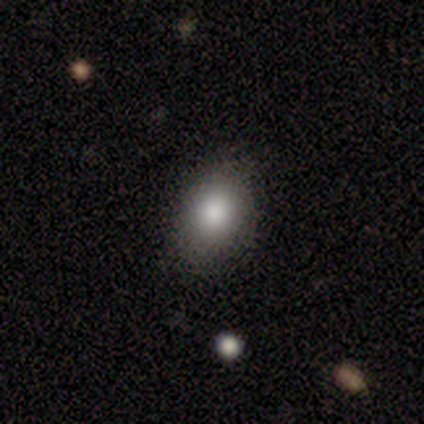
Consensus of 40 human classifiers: smooth_or_featured: smooth (p=0.80) [alt: featured or disk p=0.10]
how_rounded: in between (p=0.56) [alt: round p=0.44]
merging: none (p=0.75) [alt: minor disturbance p=0.19]